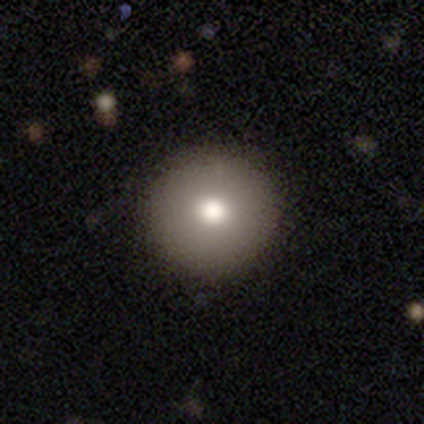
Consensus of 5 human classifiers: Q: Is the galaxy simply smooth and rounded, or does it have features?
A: smooth — 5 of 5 (100%).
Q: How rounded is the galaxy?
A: round — 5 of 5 (100%).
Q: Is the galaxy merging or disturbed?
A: none — 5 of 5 (100%).